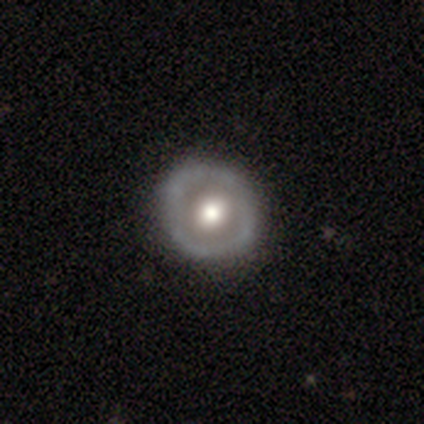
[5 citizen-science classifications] This is marginally a smooth galaxy (40%, tied with featured or disk). How rounded: clearly round (100%). Merging: clearly none (100%).